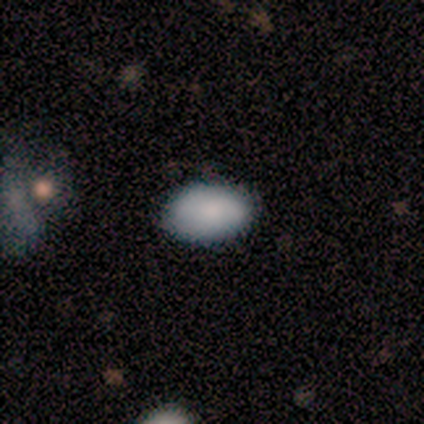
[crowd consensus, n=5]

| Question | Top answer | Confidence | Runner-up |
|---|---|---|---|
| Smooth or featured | smooth | 100% | — |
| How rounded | in between | 100% | — |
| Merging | none | 80% | minor disturbance (20%) |